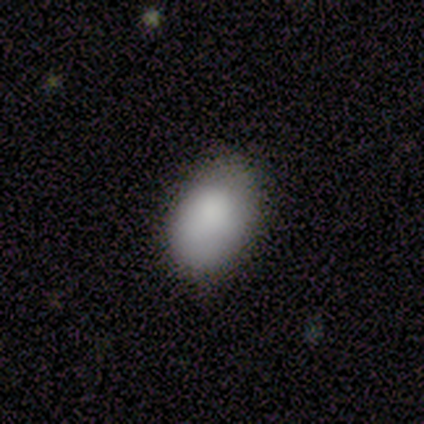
Volunteers were most divided on "merging" (2-way tie): none: 50%, minor disturbance: 50%, major disturbance: 0%, merger: 0%. More confident: how rounded — in between (100%); smooth or featured — smooth (75%).